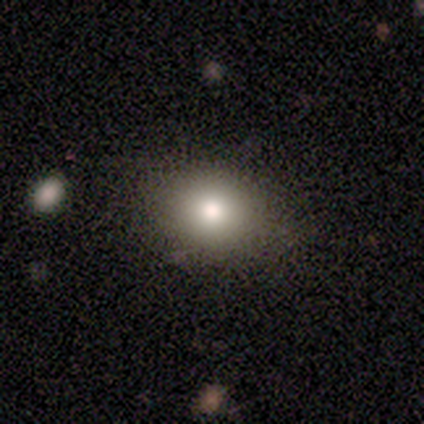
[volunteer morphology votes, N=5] This appears to be a smooth galaxy with no disk features (80%) that is in between round and cigar-shaped (75%). Merging: none (80%).